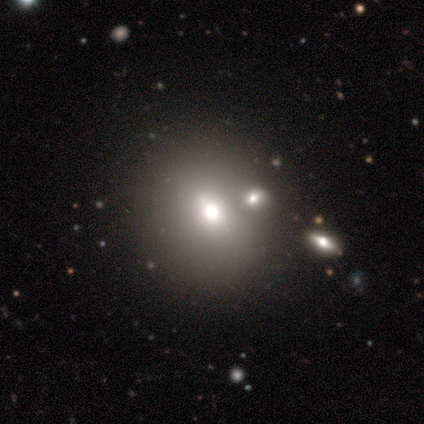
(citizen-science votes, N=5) This appears to be a featured or disk galaxy (60%) with a weak bar (50%, tied with no), no spiral arms (100%) and a large central bulge (50%, tied with moderate). Merging: merger (60%).